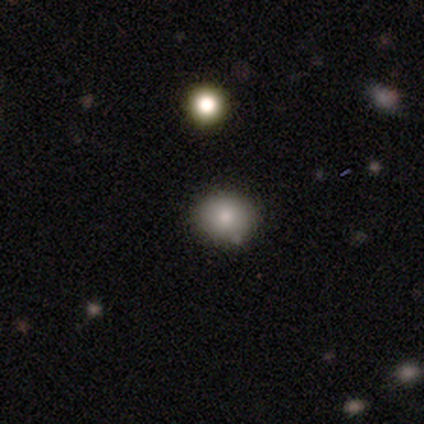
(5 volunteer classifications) Morphology: type=smooth (100%); roundness=round (80%); merging=none (60%).